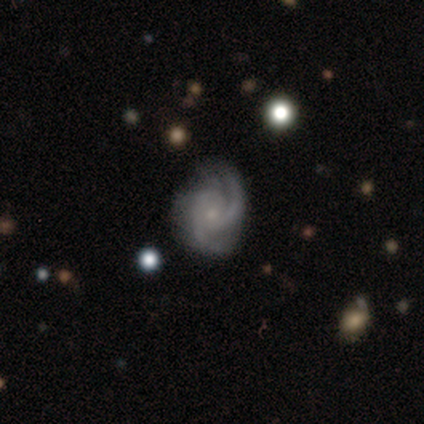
This appears to be a featured or disk galaxy (100%) with a weak bar (50%, tied with no), 4 (50%) medium (75%) spiral arms (100%) and a small central bulge (75%). Merging: none (100%).